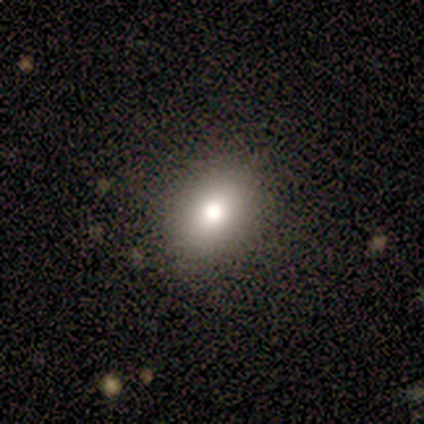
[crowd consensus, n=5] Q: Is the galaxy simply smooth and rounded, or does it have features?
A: star or artifact — 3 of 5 (60%).